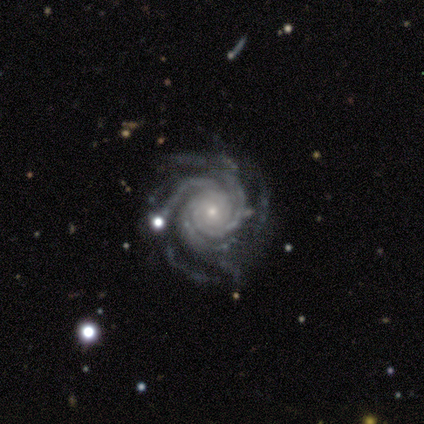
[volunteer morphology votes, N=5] This appears to be a featured or disk galaxy (100%) with no bar (100%), 4 (60%) tight (80%) spiral arms (100%) and a small central bulge (100%). Merging: none (100%).